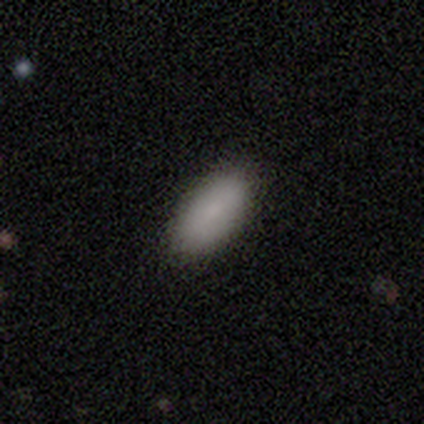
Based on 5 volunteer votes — A smooth galaxy with no disk features (100%) that is in between round and cigar-shaped (100%).

Vote fractions:
- Smooth or featured? smooth: 100% / featured or disk: 0% / star or artifact: 0%
- How rounded? in between: 100% / round: 0% / cigar-shaped: 0%
- Merging? none: 100% / minor disturbance: 0% / major disturbance: 0% / merger: 0%